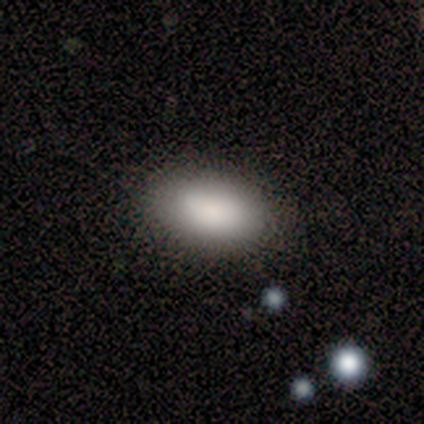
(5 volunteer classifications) Overall: smooth (100%). How rounded: in between (80%). Merging: none (100%).